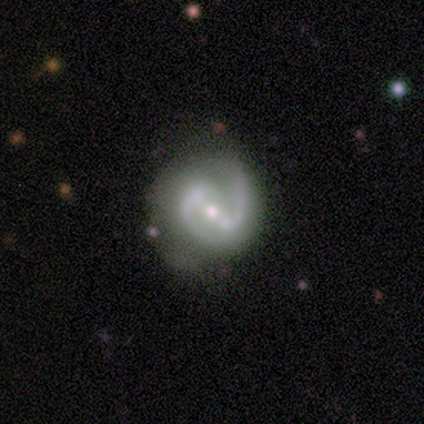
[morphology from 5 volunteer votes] Volunteers were most divided on "bulge size" (2-way tie): moderate: 50%, small: 50%, dominant: 0%, large: 0%, none: 0%. More confident: edge-on disk — no (100%); spiral arms — yes (100%); spiral arm count — 2 (100%); merging — none (100%); smooth or featured — featured or disk (80%); bar — strong (75%); spiral winding — medium (75%).